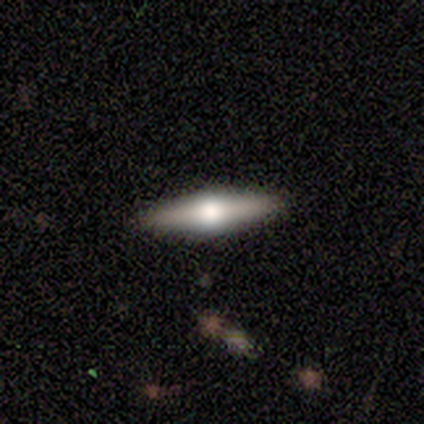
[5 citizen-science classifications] Volunteers were most divided on "smooth or featured": featured or disk: 80%, smooth: 20%, star or artifact: 0%. More confident: edge-on disk — yes (100%); edge-on bulge — rounded (100%); merging — none (100%).